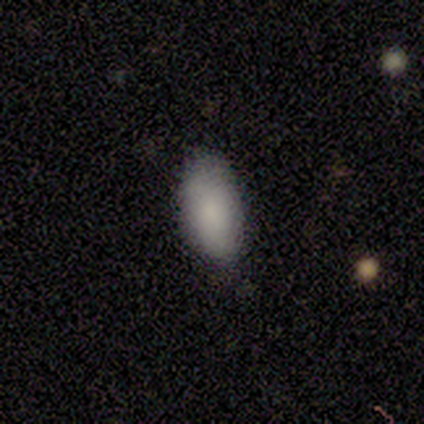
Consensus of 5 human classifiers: Smooth or featured?
  - smooth: 80% *
  - featured or disk: 20%
  - star or artifact: 0%
How rounded?
  - in between: 75% *
  - cigar-shaped: 25%
  - round: 0%
Merging?
  - none: 60% *
  - minor disturbance: 40%
  - major disturbance: 0%
  - merger: 0%